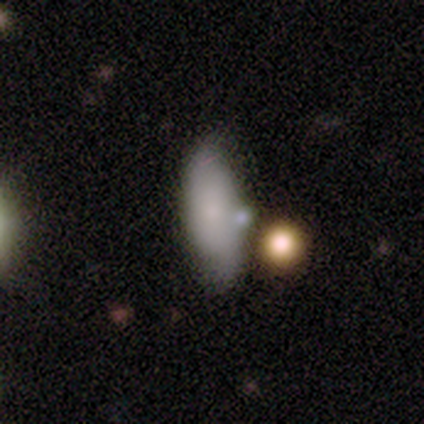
Smooth or featured: smooth — 80% (star or artifact — 20%)
How rounded: cigar-shaped — 75% (in between — 25%)
Merging: none — 75% (minor disturbance — 25%)